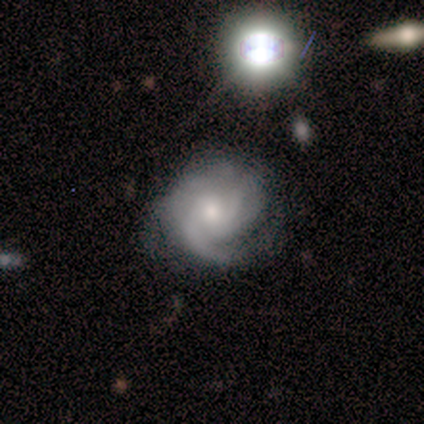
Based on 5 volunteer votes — Smooth or featured: featured or disk — 100%
Edge-on disk: no — 100%
Bar: no — 80% (weak — 20%)
Spiral arms: yes — 100%
Spiral winding: tight — 60% (medium — 40%)
Spiral arm count: can't tell — 40% (1 — 20%)
Bulge size: small — 80% (moderate — 20%)
Merging: none — 60% (major disturbance — 40%)